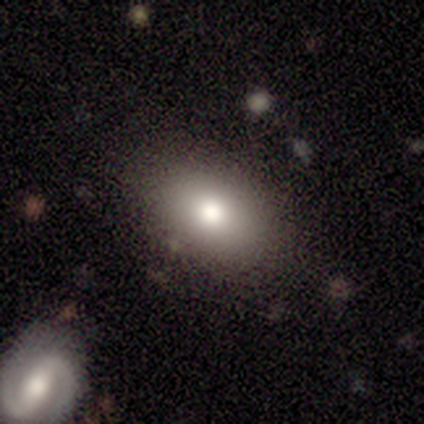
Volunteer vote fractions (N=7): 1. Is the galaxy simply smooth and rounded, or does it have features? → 86% smooth, 14% featured or disk, 0% star or artifact.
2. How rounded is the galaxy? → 83% in between, 17% round, 0% cigar-shaped.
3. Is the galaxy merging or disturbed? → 86% none, 14% minor disturbance, 0% major disturbance, 0% merger.